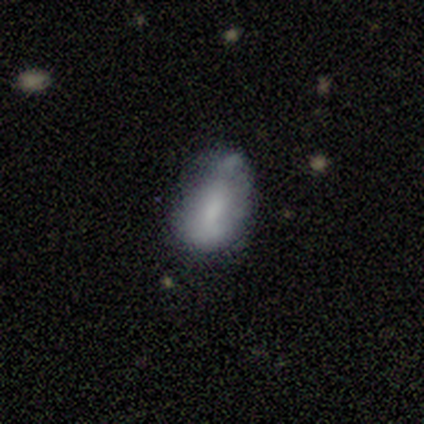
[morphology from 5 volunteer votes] Smooth or featured? 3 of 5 (60%) said smooth. How rounded? 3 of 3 (100%) said in between. Merging? 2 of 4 (50%) said major disturbance.